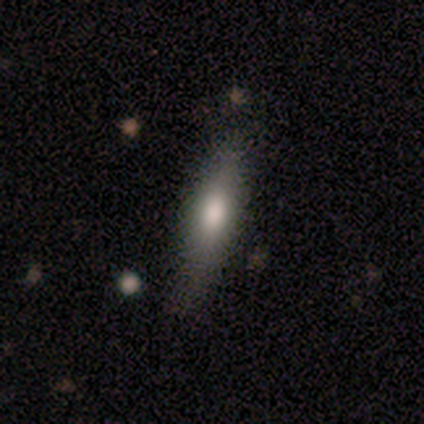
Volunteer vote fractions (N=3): A smooth galaxy with no disk features (67%) that is in between round and cigar-shaped (50%, tied with cigar-shaped).

Vote fractions:
- Smooth or featured? smooth: 67% / featured or disk: 33% / star or artifact: 0%
- How rounded? in between: 50% (tied) / cigar-shaped: 50% (tied) / round: 0%
- Merging? none: 100% / minor disturbance: 0% / major disturbance: 0% / merger: 0%